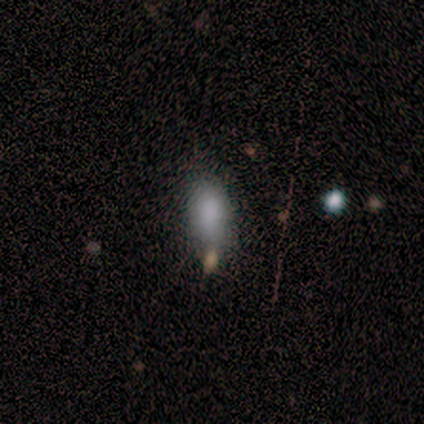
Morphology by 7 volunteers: smooth_or_featured: smooth (p=0.86) [alt: star or artifact p=0.14]
how_rounded: in between (p=1.00)
merging: none (p=0.50) [alt: minor disturbance p=0.33]